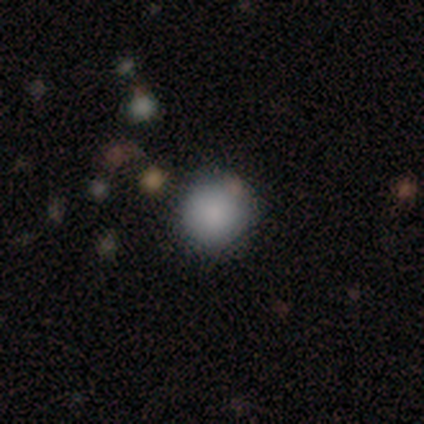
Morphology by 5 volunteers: Overall: smooth (100%). How rounded: round (100%). Merging: none (100%).